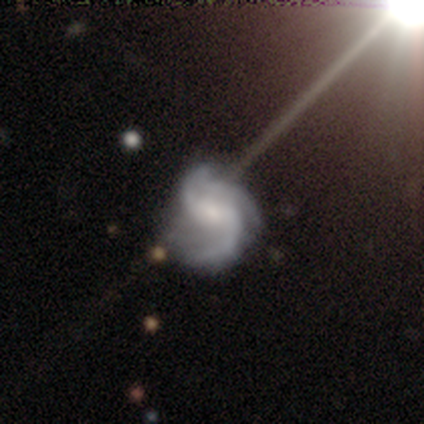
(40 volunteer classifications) Smooth or featured: featured or disk — 90% (star or artifact — 10%)
Edge-on disk: no — 100%
Bar: weak — 47% (no — 33%)
Spiral arms: yes — 97% (no — 3%)
Spiral winding: medium — 66% (loose — 23%)
Spiral arm count: 3 — 46% (2 — 37%)
Bulge size: small — 50% (moderate — 36%)
Merging: none — 42% (minor disturbance — 19%)